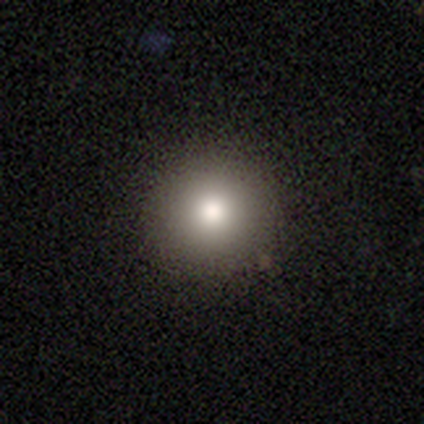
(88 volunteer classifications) smooth 81%, featured or disk 10%, star or artifact 9%. Down the decision tree: how rounded — round (96%); merging — none (94%).